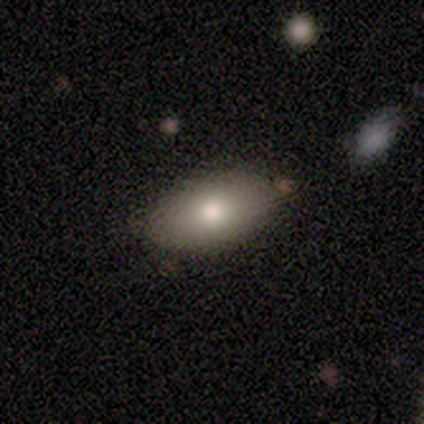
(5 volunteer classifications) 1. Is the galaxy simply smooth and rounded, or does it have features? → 100% smooth, 0% featured or disk, 0% star or artifact.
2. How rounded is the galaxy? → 100% in between, 0% round, 0% cigar-shaped.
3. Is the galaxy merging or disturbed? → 80% none, 20% minor disturbance, 0% major disturbance, 0% merger.